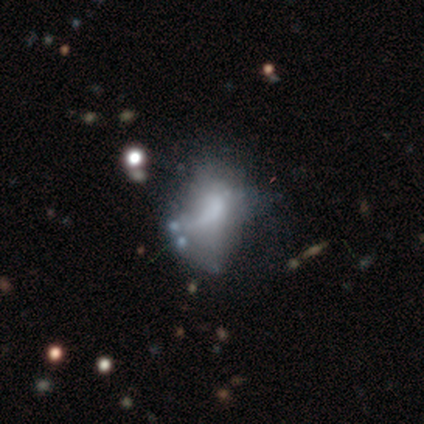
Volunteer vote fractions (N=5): Morphology: type=smooth (60%); roundness=in between (100%); merging=none (33%, tied with minor disturbance and major disturbance).